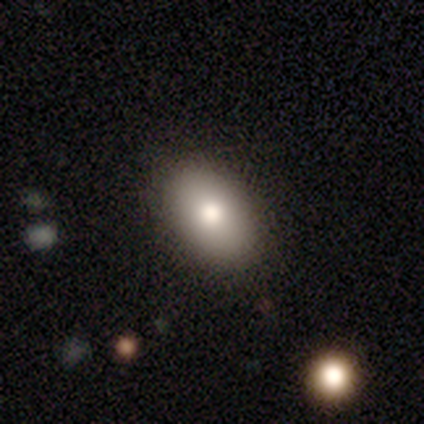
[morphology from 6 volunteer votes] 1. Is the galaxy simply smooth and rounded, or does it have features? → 100% smooth, 0% featured or disk, 0% star or artifact.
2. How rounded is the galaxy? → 100% in between, 0% round, 0% cigar-shaped.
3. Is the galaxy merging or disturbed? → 83% none, 17% minor disturbance, 0% major disturbance, 0% merger.